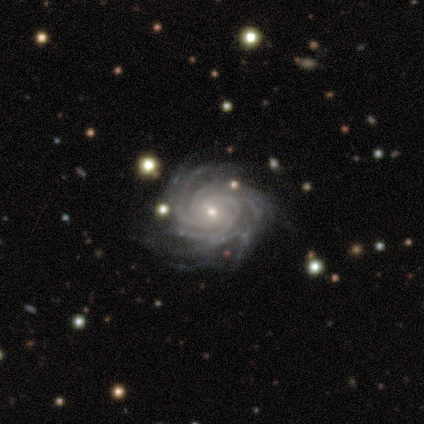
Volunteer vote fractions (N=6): A featured or disk galaxy (100%) with no bar (67%), more than 4 (50%) tight (67%) spiral arms (100%) and a small central bulge (83%). Merging: none (67%).